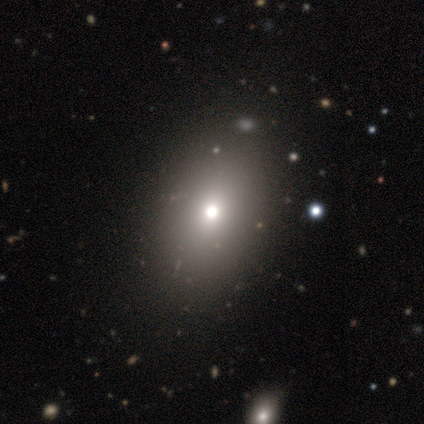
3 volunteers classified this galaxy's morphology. A smooth galaxy with no disk features (100%) that is in between round and cigar-shaped (100%).

Vote fractions:
- Smooth or featured? smooth: 100% / featured or disk: 0% / star or artifact: 0%
- How rounded? in between: 100% / round: 0% / cigar-shaped: 0%
- Merging? none: 100% / minor disturbance: 0% / major disturbance: 0% / merger: 0%